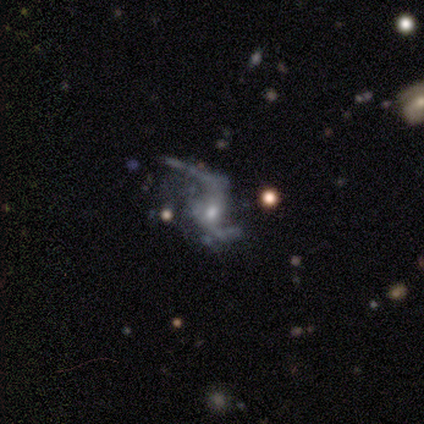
This appears to be a featured or disk galaxy (100%) with no bar (80%), 2 (100%) loose (100%) spiral arms (60%) and a small central bulge (60%). Merging: none (60%).